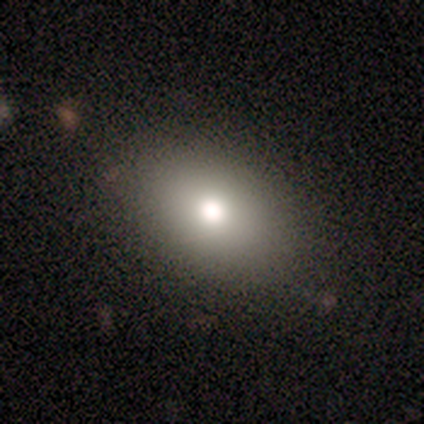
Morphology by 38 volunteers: smooth_or_featured: smooth (p=0.74) [alt: featured or disk p=0.18]
how_rounded: in between (p=0.89) [alt: round p=0.11]
merging: none (p=0.89) [alt: minor disturbance p=0.06]